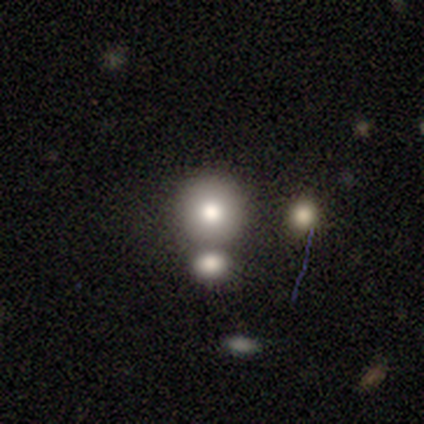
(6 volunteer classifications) Smooth or featured? 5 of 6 (83%) said smooth. How rounded? 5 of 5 (100%) said round. Merging? 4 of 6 (67%) said none.